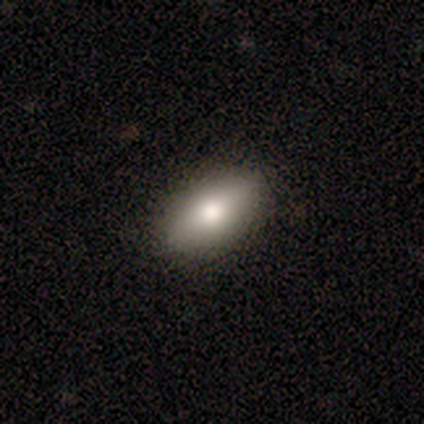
This appears to be a smooth galaxy with no disk features (40%, tied with featured or disk) that is in between round and cigar-shaped (50%, tied with cigar-shaped). Merging: none (100%).